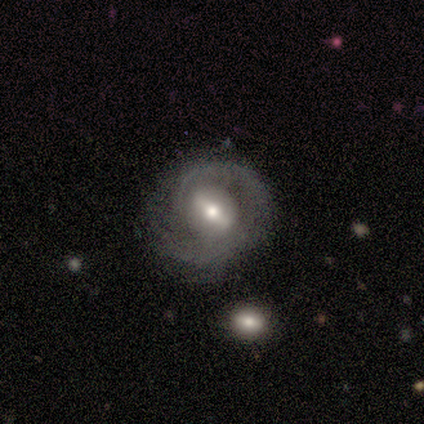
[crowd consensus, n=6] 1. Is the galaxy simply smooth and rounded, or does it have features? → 67% featured or disk, 17% smooth, 17% star or artifact.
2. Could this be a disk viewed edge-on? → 100% no, 0% yes.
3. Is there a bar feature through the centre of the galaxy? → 75% strong, 25% weak, 0% no.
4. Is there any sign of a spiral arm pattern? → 100% yes, 0% no.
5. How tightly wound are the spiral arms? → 50% tight, 25% medium, 25% loose.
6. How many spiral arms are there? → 50% 1, 25% 2, 25% can't tell, 0% 3, 0% 4, 0% more than 4.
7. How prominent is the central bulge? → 50% moderate (tied), 50% small (tied), 0% dominant, 0% large, 0% none.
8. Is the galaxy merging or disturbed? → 80% none, 20% major disturbance, 0% minor disturbance, 0% merger.